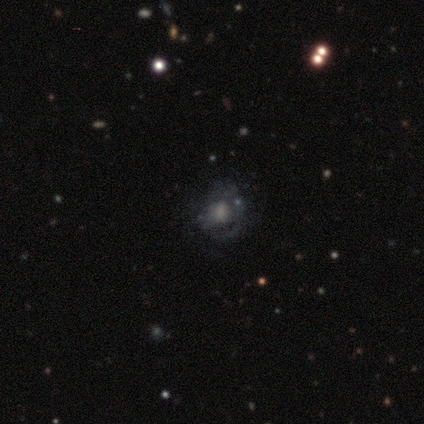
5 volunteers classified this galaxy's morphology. Smooth or featured? 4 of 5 (80%) said featured or disk. Edge-on disk? 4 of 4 (100%) said no. Bar? 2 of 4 (50%) said no. Spiral arms? 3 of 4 (75%) said yes. Spiral winding? 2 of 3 (67%) said medium. Spiral arm count? 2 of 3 (67%) said can't tell. Bulge size? 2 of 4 (50%) said large. Merging? 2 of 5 (40%, tied with major disturbance) said none.